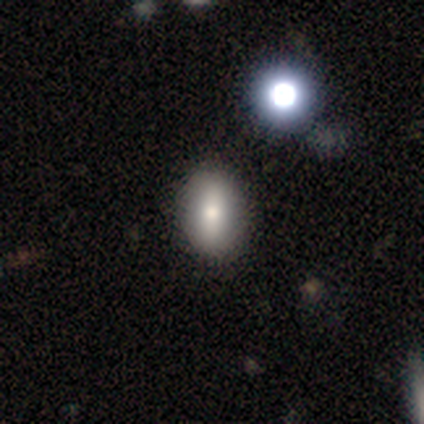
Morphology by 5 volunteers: smooth_or_featured: smooth (p=0.40) [tied with: featured or disk p=0.40]
how_rounded: in between (p=1.00)
merging: none (p=1.00)